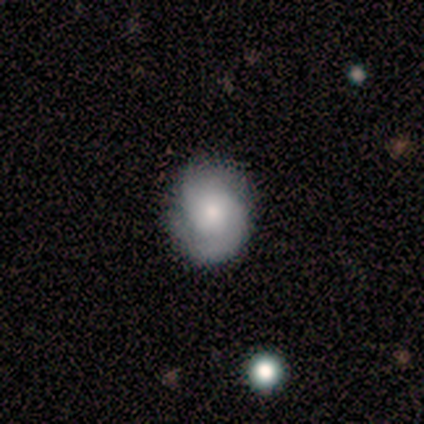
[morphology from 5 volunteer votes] type=featured or disk (60%); edge-on=no (100%); bar=no (67%); spiral arms=yes (100%); winding=tight (67%); arm count=2 (100%); bulge=small (67%); merging=none (100%).